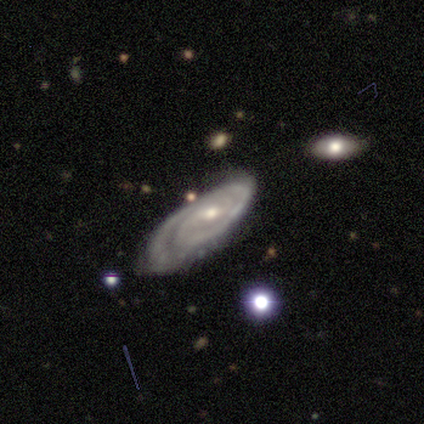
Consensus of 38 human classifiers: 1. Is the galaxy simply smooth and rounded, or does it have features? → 87% featured or disk, 8% star or artifact, 5% smooth.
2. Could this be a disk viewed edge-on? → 88% no, 12% yes.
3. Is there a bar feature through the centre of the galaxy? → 45% no, 41% weak, 14% strong.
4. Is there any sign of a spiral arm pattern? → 93% yes, 7% no.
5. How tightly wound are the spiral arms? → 59% tight, 26% medium, 15% loose.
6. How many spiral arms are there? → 48% 2, 19% 1, 19% 3, 15% can't tell, 0% 4, 0% more than 4.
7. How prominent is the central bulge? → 69% moderate, 24% small, 7% none, 0% dominant, 0% large.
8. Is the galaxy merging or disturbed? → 60% none, 20% major disturbance, 17% minor disturbance, 3% merger.